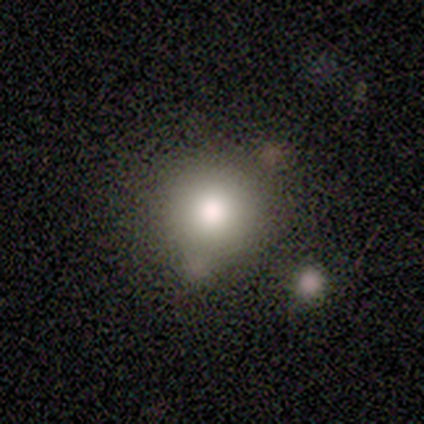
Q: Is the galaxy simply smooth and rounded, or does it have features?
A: smooth — 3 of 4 (75%).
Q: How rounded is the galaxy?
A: round — 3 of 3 (100%).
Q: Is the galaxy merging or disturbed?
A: none — 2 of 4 (50%, tied with minor disturbance).